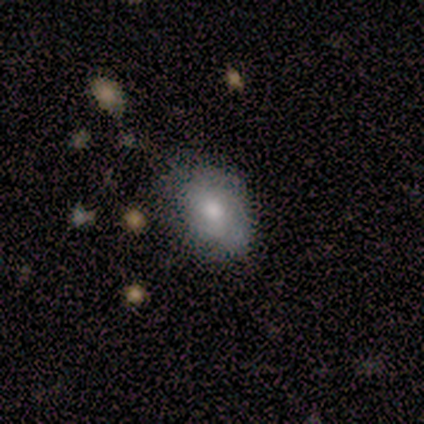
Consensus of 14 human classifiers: This appears to be a smooth galaxy with no disk features (79%) that is in between round and cigar-shaped (91%). Merging: none (64%).